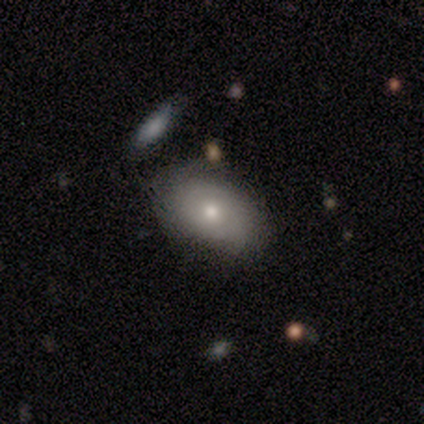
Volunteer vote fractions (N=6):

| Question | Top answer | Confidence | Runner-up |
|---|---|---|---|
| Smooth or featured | smooth | 50% | tied: featured or disk (50%) |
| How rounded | in between | 100% | — |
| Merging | none | 83% | merger (17%) |